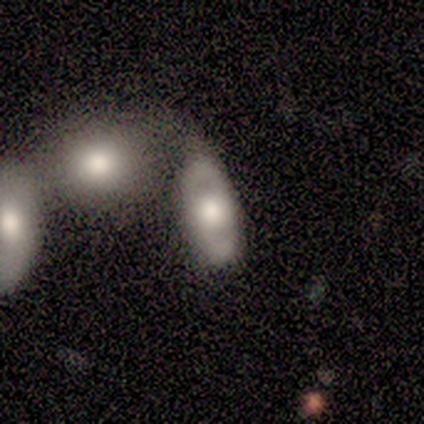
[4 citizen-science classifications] Overall: smooth (50%, tied with featured or disk). How rounded: in between (100%). Merging: none (25%, tied with minor disturbance, major disturbance and merger).